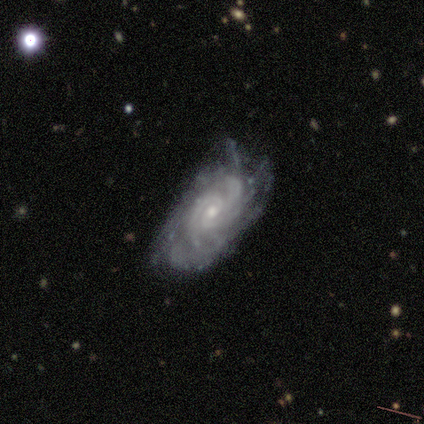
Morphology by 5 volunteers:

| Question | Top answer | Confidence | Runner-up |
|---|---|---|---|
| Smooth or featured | featured or disk | 80% | smooth (20%) |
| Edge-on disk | no | 100% | — |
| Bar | no | 100% | — |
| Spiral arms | yes | 100% | — |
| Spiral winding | tight | 50% | tied: medium (50%) |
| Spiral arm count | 4 | 50% | tied: can't tell (50%) |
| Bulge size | moderate | 50% | tied: small (50%) |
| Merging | none | 40% | tied: minor disturbance (40%) |